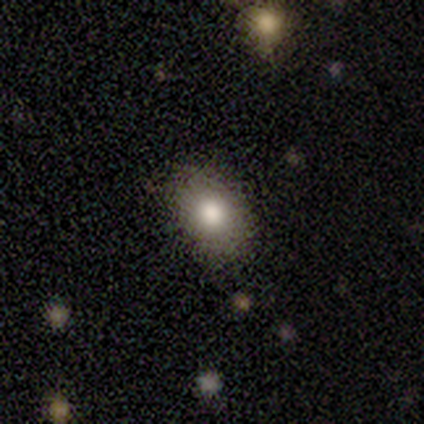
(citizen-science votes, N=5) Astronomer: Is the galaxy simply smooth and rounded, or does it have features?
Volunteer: smooth — 60%.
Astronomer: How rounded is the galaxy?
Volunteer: in between — 100%.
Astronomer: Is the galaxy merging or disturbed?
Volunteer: none — 75%.